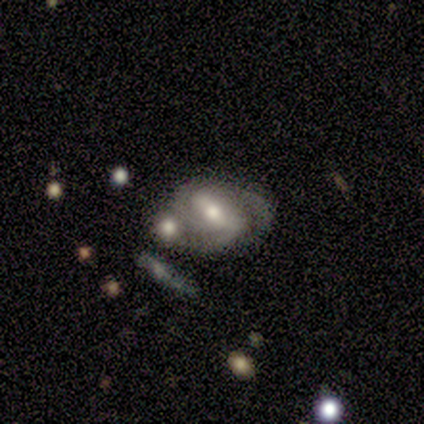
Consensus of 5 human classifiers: This appears to be a featured or disk galaxy (80%) with a strong bar (75%), 2 (50%) medium (75%) spiral arms (100%) and a moderate central bulge (50%). Merging: none (40%, tied with merger).